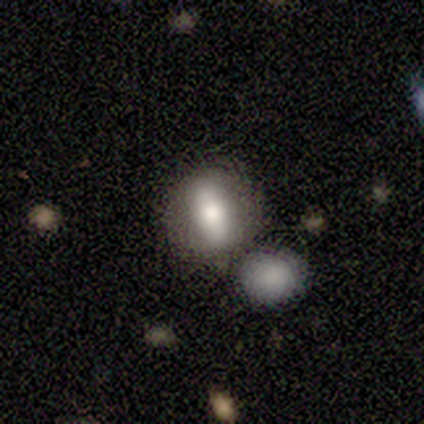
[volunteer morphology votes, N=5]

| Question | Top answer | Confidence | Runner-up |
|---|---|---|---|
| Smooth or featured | smooth | 80% | featured or disk (20%) |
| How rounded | round | 50% | tied: in between (50%) |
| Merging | none | 60% | merger (40%) |